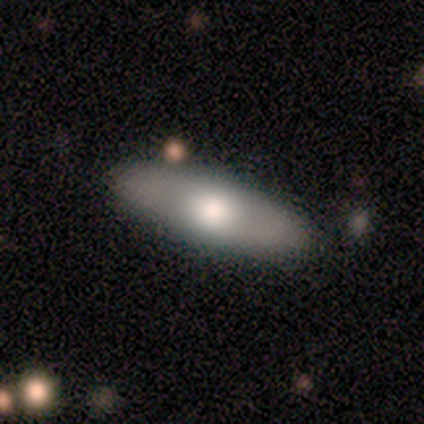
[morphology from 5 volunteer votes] A smooth galaxy with no disk features (80%) that is in between round and cigar-shaped (100%).

Vote fractions:
- Smooth or featured? smooth: 80% / star or artifact: 20% / featured or disk: 0%
- How rounded? in between: 100% / round: 0% / cigar-shaped: 0%
- Merging? none: 75% / minor disturbance: 25% / major disturbance: 0% / merger: 0%